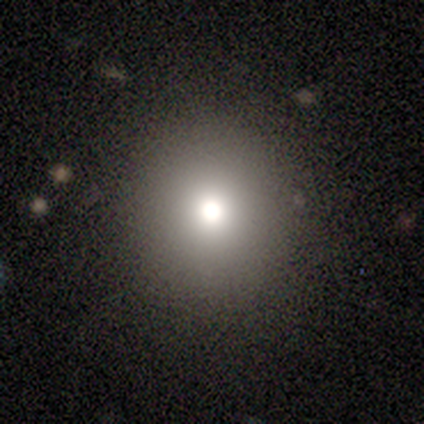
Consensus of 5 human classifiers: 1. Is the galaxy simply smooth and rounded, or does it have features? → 80% smooth, 20% featured or disk, 0% star or artifact.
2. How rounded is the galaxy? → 100% round, 0% in between, 0% cigar-shaped.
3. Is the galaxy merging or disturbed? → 100% none, 0% minor disturbance, 0% major disturbance, 0% merger.